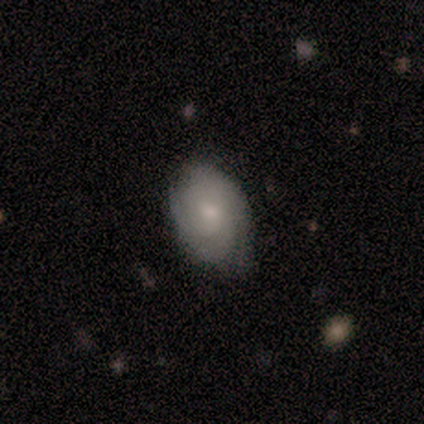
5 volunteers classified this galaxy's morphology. type=featured or disk (60%); edge-on=no (100%); bar=no (100%); spiral arms=yes (100%); winding=tight (67%); arm count=2 (67%); bulge=moderate (67%); merging=minor disturbance (60%).